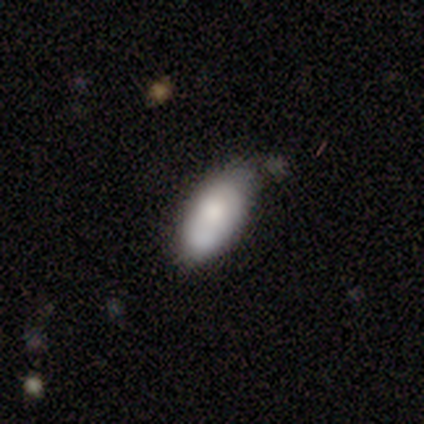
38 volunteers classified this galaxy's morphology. This appears to be a smooth galaxy with no disk features (84%) that is in between round and cigar-shaped (94%). Merging: none (58%).